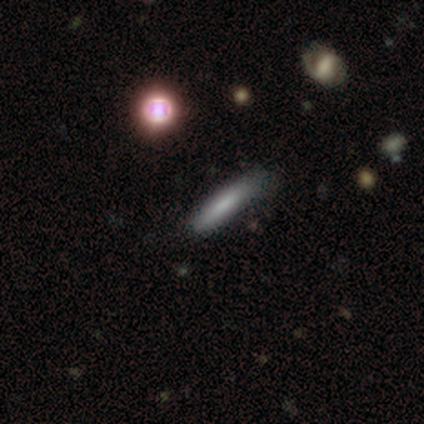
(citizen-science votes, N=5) Morphology: type=smooth (100%); roundness=cigar-shaped (100%); merging=none (60%).